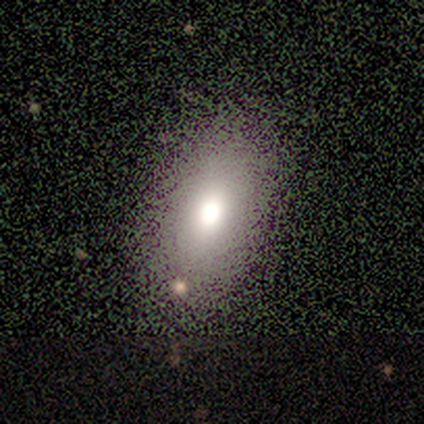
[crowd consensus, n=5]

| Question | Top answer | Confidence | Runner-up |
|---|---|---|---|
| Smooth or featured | smooth | 60% | featured or disk (20%) |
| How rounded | cigar-shaped | 67% | in between (33%) |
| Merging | none | 75% | minor disturbance (25%) |